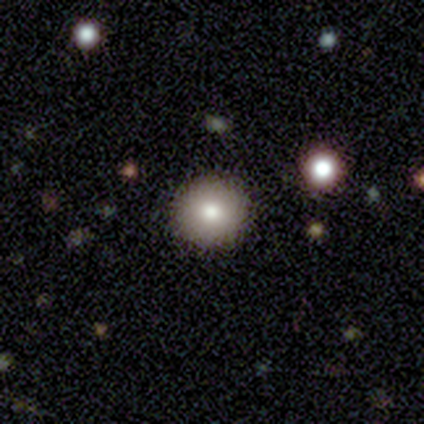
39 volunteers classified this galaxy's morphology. A smooth galaxy with no disk features (72%) that is round (96%).

Vote fractions:
- Smooth or featured? smooth: 72% / star or artifact: 21% / featured or disk: 8%
- How rounded? round: 96% / in between: 4% / cigar-shaped: 0%
- Merging? none: 100% / minor disturbance: 0% / major disturbance: 0% / merger: 0%